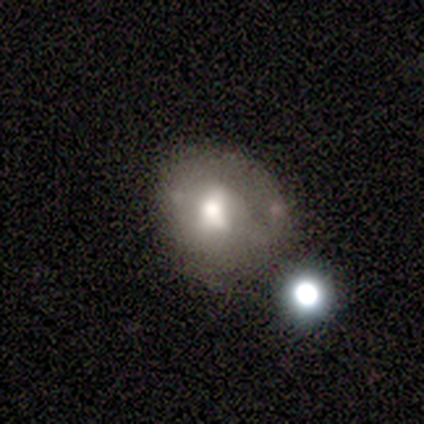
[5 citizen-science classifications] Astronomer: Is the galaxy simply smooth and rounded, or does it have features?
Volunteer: smooth — 60% (runner-up: featured or disk, 40%).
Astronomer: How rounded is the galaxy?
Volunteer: round — 100%.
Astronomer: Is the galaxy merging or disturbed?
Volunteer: none — 40%, tied with major disturbance at 40%.